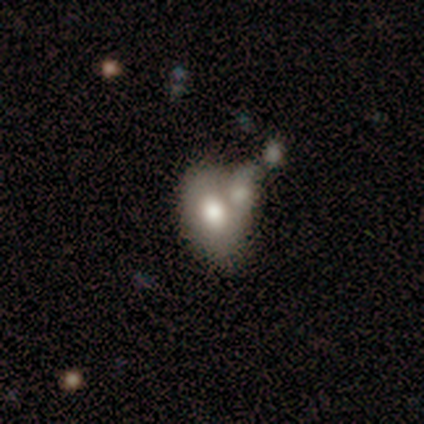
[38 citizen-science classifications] Q: Smooth or featured?
A: smooth (66%); runner-up: featured or disk (32%)
Q: How rounded?
A: in between (76%); runner-up: round (20%)
Q: Merging?
A: merger (46%); runner-up: none (27%)